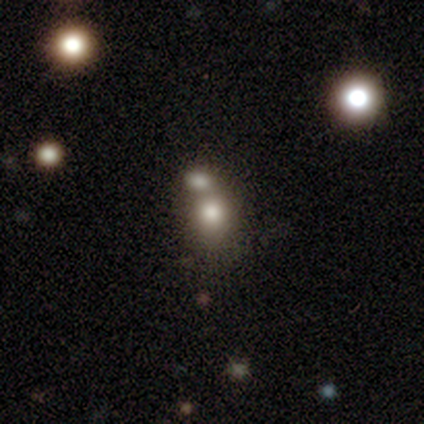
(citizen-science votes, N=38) smooth-or-featured: smooth: 76% | star or artifact: 13% | featured or disk: 11%
  how-rounded: round: 72% | in between: 24% | cigar-shaped: 3%
  merging: merger: 48% | none: 30% | minor disturbance: 3% | major disturbance: 3%